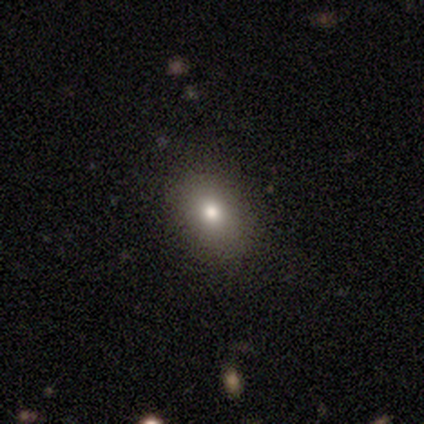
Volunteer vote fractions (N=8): smooth_or_featured: smooth (p=0.62) [alt: star or artifact p=0.25]
how_rounded: in between (p=0.80) [alt: round p=0.20]
merging: none (p=1.00)